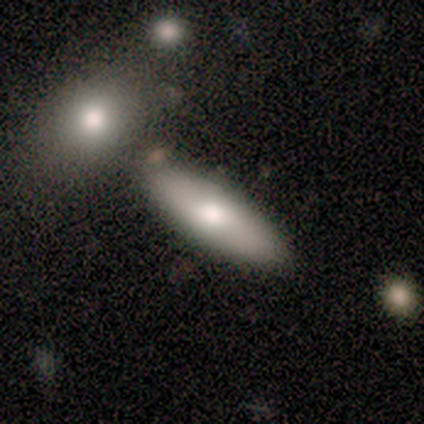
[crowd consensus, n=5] smooth-or-featured: smooth: 100% | featured or disk: 0% | star or artifact: 0%
  how-rounded: cigar-shaped: 60% | in between: 40% | round: 0%
  merging: none: 100% | minor disturbance: 0% | major disturbance: 0% | merger: 0%